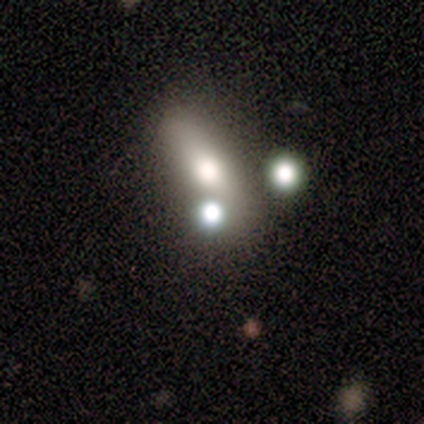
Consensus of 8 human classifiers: Smooth or featured? smooth (100%)
How rounded? in between (75%)
Merging? none (50%)